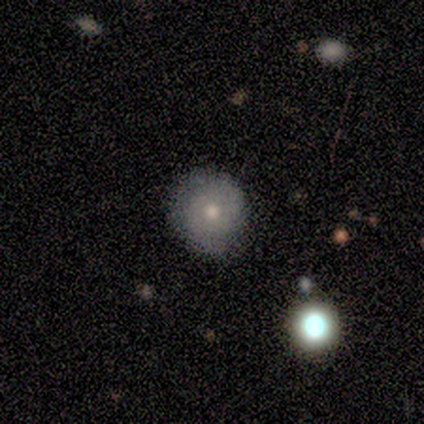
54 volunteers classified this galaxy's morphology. Smooth or featured? 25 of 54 (46%, tied with featured or disk) said smooth. How rounded? 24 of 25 (96%) said round. Merging? 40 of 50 (80%) said none.